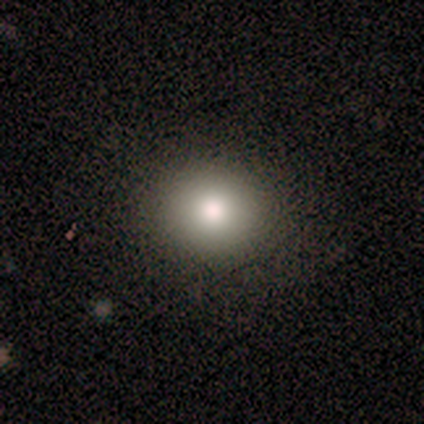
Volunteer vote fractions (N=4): Q: Smooth or featured?
A: smooth (100%)
Q: How rounded?
A: round (75%); runner-up: in between (25%)
Q: Merging?
A: none (100%)